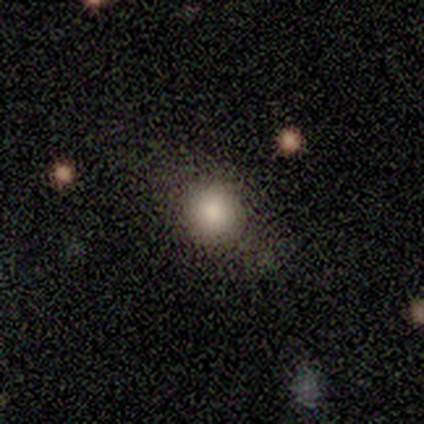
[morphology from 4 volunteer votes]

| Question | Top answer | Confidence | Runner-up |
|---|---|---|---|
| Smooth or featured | smooth | 75% | featured or disk (25%) |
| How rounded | round | 67% | in between (33%) |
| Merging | none | 50% | minor disturbance (25%) |